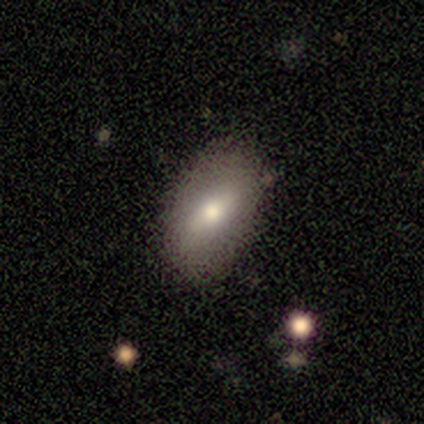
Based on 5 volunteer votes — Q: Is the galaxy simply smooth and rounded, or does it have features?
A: smooth — 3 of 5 (60%).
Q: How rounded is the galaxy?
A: in between — 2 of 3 (67%).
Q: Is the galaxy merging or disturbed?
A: none — 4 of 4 (100%).